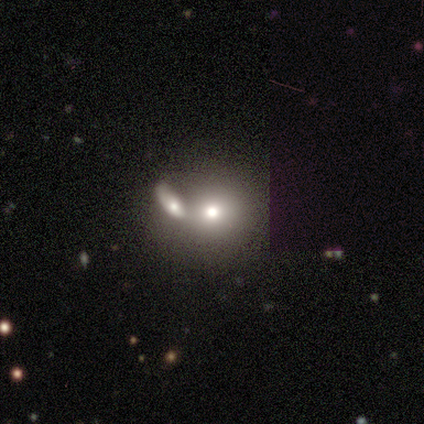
Morphology: type=smooth (75%); roundness=round (78%); merging=merger (67%).